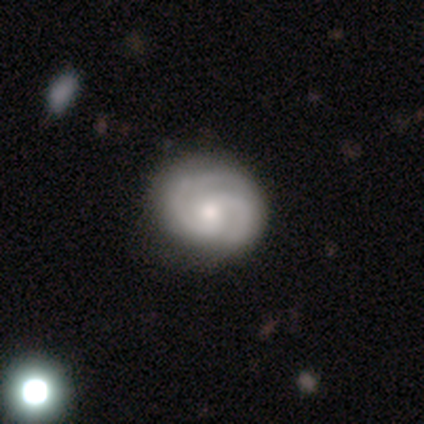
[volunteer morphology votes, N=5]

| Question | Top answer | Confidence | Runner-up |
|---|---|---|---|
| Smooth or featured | featured or disk | 100% | — |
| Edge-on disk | no | 100% | — |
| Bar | no | 80% | weak (20%) |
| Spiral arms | yes | 80% | no (20%) |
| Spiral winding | tight | 50% | tied: loose (50%) |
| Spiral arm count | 2 | 50% | 4 (25%) |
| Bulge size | moderate | 60% | large (20%) |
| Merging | none | 60% | minor disturbance (20%) |